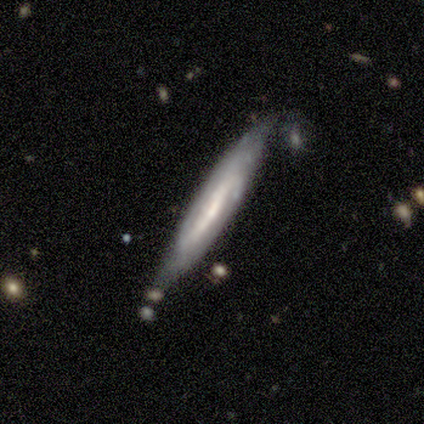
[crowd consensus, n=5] smooth_or_featured: smooth (p=0.60) [alt: featured or disk p=0.20]
how_rounded: cigar-shaped (p=1.00)
merging: none (p=1.00)